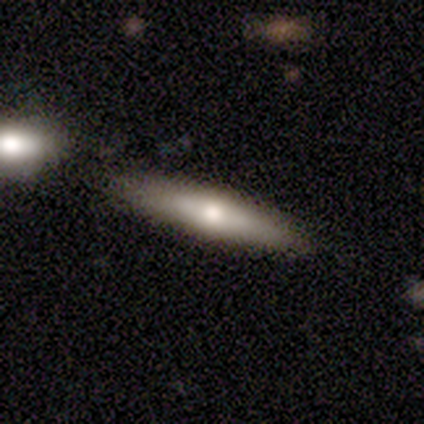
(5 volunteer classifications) A smooth galaxy with no disk features (80%) that is cigar-shaped (75%).

Vote fractions:
- Smooth or featured? smooth: 80% / featured or disk: 20% / star or artifact: 0%
- How rounded? cigar-shaped: 75% / round: 25% / in between: 0%
- Merging? none: 60% / minor disturbance: 40% / major disturbance: 0% / merger: 0%